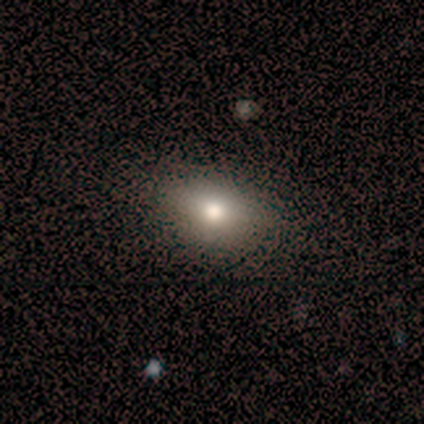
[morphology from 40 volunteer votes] This appears to be a smooth galaxy with no disk features (70%) that is in between round and cigar-shaped (86%). Merging: none (61%).